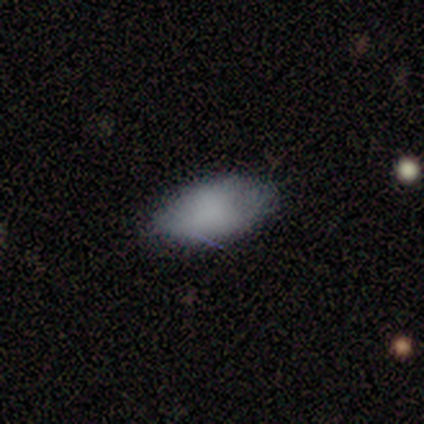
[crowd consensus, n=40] smooth-or-featured: smooth: 82% | featured or disk: 10% | star or artifact: 8%
  how-rounded: in between: 97% | round: 3% | cigar-shaped: 0%
  merging: none: 84% | minor disturbance: 11% | major disturbance: 3% | merger: 3%